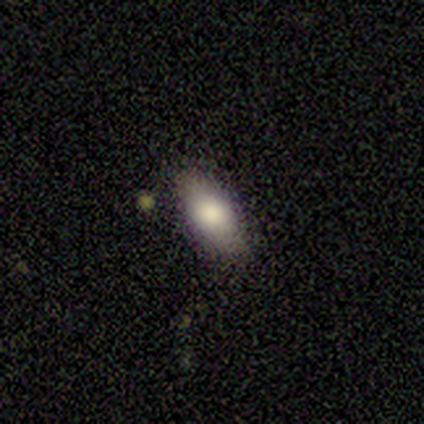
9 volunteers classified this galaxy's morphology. smooth-or-featured: smooth: 67% | featured or disk: 22% | star or artifact: 11%
  how-rounded: in between: 67% | round: 17% | cigar-shaped: 17%
  merging: none: 75% | minor disturbance: 12% | major disturbance: 12% | merger: 0%